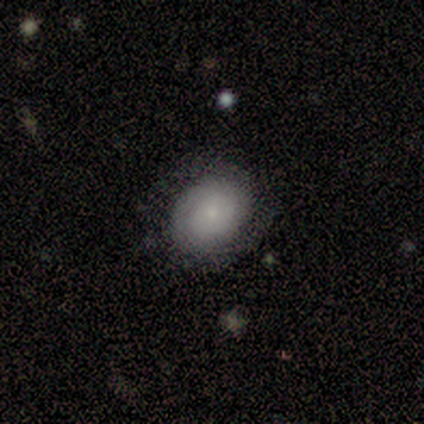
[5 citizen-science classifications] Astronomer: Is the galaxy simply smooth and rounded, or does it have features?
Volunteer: featured or disk — 80%.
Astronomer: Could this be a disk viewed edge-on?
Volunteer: no — 100%.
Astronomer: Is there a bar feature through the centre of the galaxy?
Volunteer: no — 100%.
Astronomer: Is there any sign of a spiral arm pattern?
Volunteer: yes — 75%.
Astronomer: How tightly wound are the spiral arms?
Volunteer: tight — 100%.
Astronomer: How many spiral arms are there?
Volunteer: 2 — 67%.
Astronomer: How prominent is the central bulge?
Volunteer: small — 75%.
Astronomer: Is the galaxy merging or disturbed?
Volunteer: none — 80%.